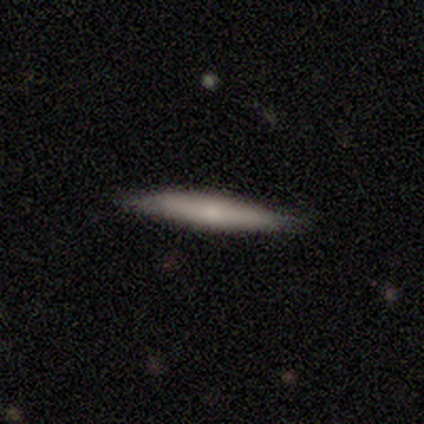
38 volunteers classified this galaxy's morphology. Smooth or featured? smooth (63%)
How rounded? cigar-shaped (100%)
Merging? none (89%)